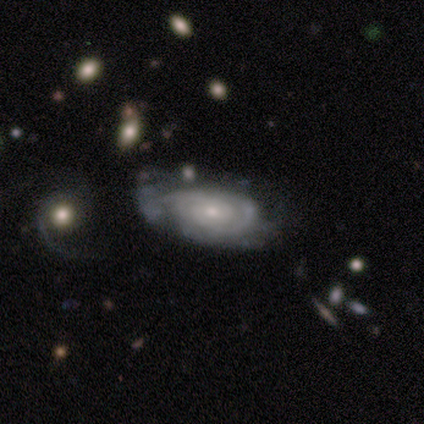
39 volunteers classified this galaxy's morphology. Overall: featured or disk (82%). Edge-on disk: no (88%). Bar: no (79%). Spiral arms: yes (93%). Spiral arm count: 2 (35%, tied with can't tell). Spiral winding: tight (73%). Bulge size: small (64%; moderate 36%). Merging: none (42%; minor disturbance 32%).